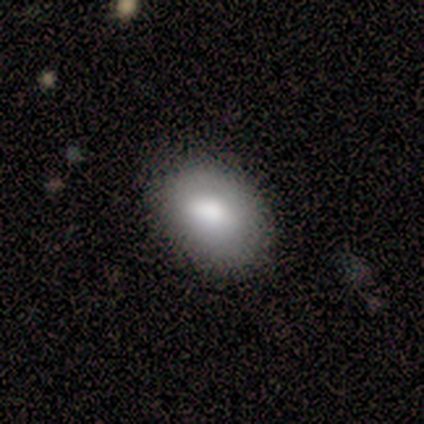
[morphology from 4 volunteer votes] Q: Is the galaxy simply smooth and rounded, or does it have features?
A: smooth — 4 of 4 (100%).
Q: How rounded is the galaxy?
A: in between — 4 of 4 (100%).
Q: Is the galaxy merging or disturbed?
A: none — 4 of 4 (100%).